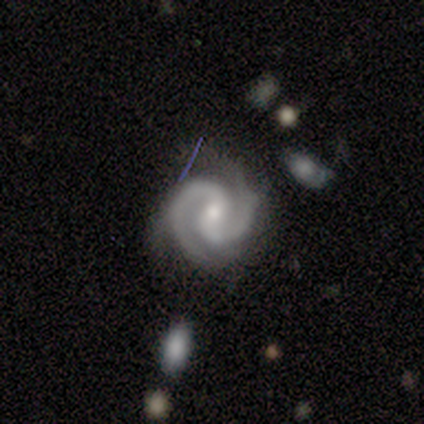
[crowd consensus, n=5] Q: Smooth or featured?
A: featured or disk (80%); runner-up: star or artifact (20%)
Q: Edge-on disk?
A: no (100%)
Q: Bar?
A: weak (75%); runner-up: no (25%)
Q: Spiral arms?
A: yes (100%)
Q: Spiral winding?
A: medium (75%); runner-up: loose (25%)
Q: Spiral arm count?
A: 2 (100%)
Q: Bulge size?
A: small (100%)
Q: Merging?
A: none (50%); tied with: minor disturbance (50%)